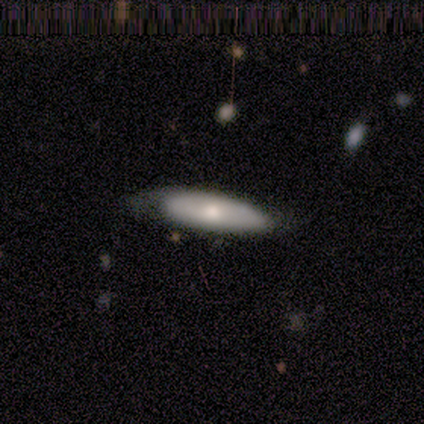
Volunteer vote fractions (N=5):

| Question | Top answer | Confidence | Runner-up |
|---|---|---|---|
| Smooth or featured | smooth | 60% | featured or disk (40%) |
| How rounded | cigar-shaped | 67% | in between (33%) |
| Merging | minor disturbance | 60% | none (40%) |